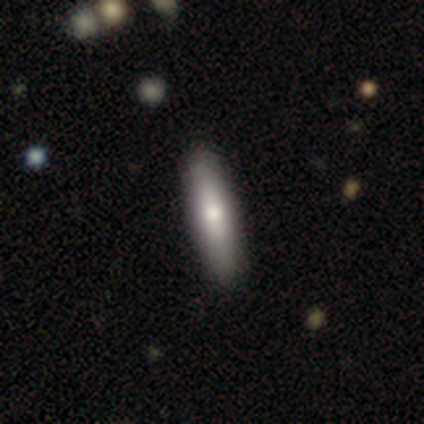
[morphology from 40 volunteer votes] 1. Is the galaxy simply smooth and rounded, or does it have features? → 72% smooth, 28% featured or disk, 0% star or artifact.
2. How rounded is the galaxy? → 72% cigar-shaped, 28% in between, 0% round.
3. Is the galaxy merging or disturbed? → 80% none, 8% minor disturbance, 0% major disturbance, 0% merger.